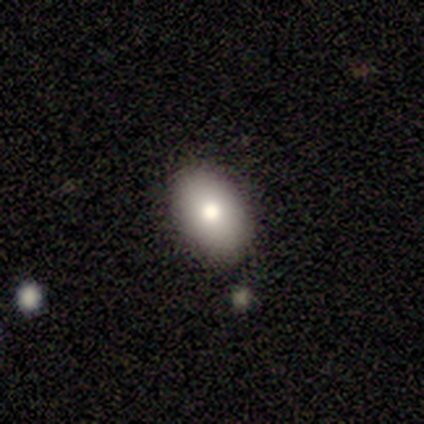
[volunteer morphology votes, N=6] Smooth or featured? smooth (50%, tied with featured or disk)
How rounded? in between (100%)
Merging? none (100%)